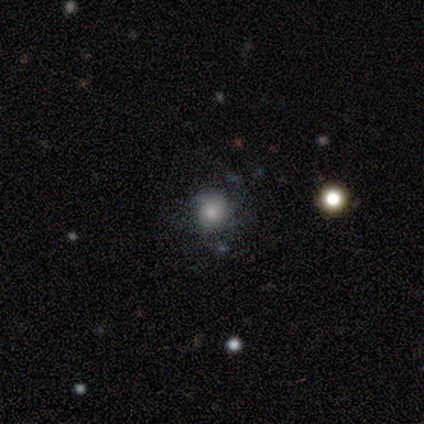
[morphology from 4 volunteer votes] smooth 50% (tied), featured or disk 50% (tied), star or artifact 0%. Down the decision tree: how rounded — round (50%, tied with in between); merging — minor disturbance (50%, tied with major disturbance).